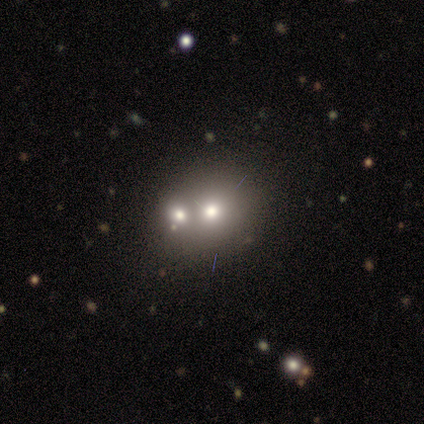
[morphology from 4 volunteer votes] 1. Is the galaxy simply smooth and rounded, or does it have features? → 50% star or artifact, 25% smooth, 25% featured or disk.